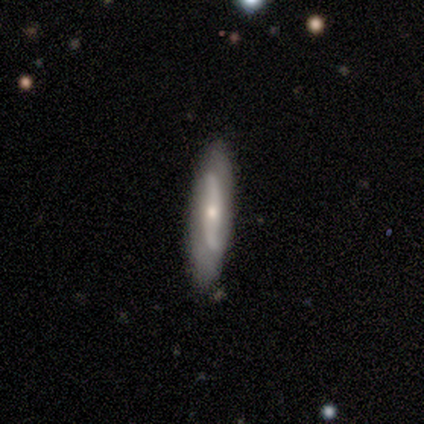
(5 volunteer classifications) Smooth or featured?
  - featured or disk: 100% *
  - smooth: 0%
  - star or artifact: 0%
Edge-on disk?
  - no: 60% *
  - yes: 40%
Bar?
  - no: 67% *
  - strong: 33%
  - weak: 0%
Spiral arms?
  - no: 67% *
  - yes: 33%
Bulge size?
  - moderate: 67% *
  - small: 33%
  - dominant: 0%
  - large: 0%
  - none: 0%
Merging?
  - none: 100% *
  - minor disturbance: 0%
  - major disturbance: 0%
  - merger: 0%